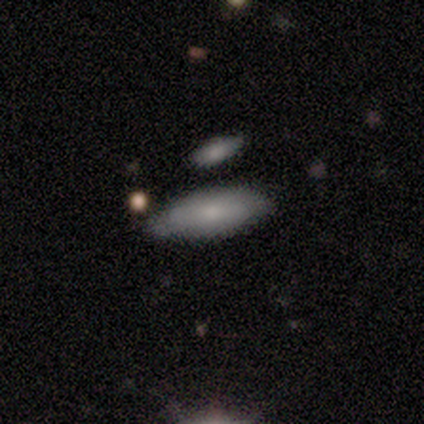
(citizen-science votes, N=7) Smooth or featured? smooth (71%)
How rounded? in between (100%)
Merging? none (86%)